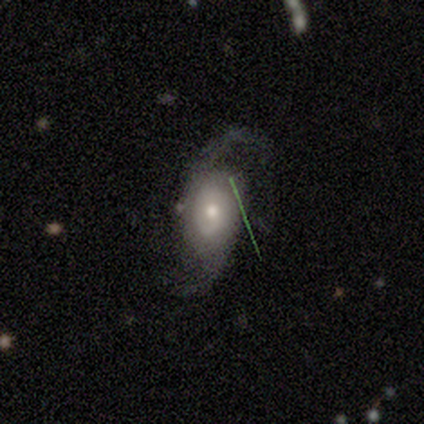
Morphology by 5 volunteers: This appears to be a featured or disk galaxy (60%) with no bar (100%), 2 (100%) medium (100%) spiral arms (100%) and a large central bulge (50%, tied with small). Merging: none (60%).